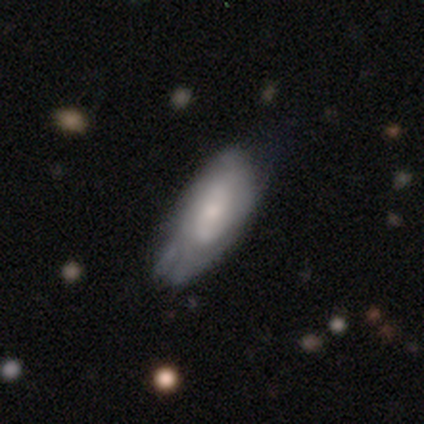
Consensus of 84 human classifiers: Overall: featured or disk (55%; smooth 39%). Edge-on disk: no (89%). Bar: no (73%). Spiral arms: yes (54%; no 46%). Spiral arm count: can't tell (77%). Spiral winding: tight (77%). Bulge size: small (56%; moderate 22%). Merging: minor disturbance (56%; none 28%).